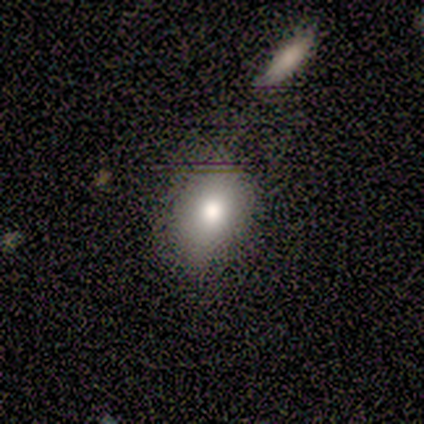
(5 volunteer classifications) smooth_or_featured: smooth (p=0.80) [alt: star or artifact p=0.20]
how_rounded: round (p=0.50) [tied with: in between p=0.50]
merging: none (p=0.50) [alt: minor disturbance p=0.25]